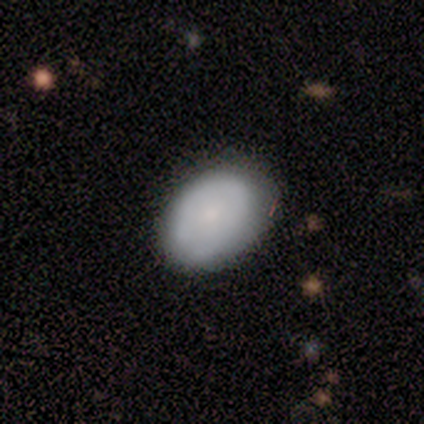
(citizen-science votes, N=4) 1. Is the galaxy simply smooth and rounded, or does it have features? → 75% smooth, 25% featured or disk, 0% star or artifact.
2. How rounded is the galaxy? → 100% in between, 0% round, 0% cigar-shaped.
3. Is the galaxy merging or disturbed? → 50% none (tied), 50% minor disturbance (tied), 0% major disturbance, 0% merger.